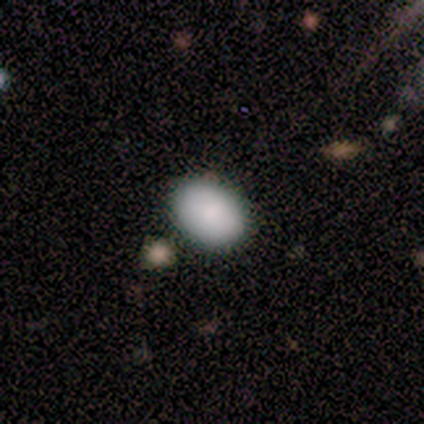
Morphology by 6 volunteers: smooth-or-featured: smooth: 100% | featured or disk: 0% | star or artifact: 0%
  how-rounded: round: 50% (tied) | in between: 50% (tied) | cigar-shaped: 0%
  merging: none: 67% | minor disturbance: 17% | merger: 17% | major disturbance: 0%